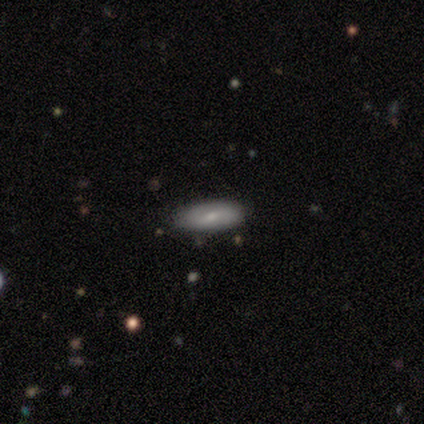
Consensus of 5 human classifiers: Smooth or featured? smooth (60%)
How rounded? in between (100%)
Merging? none (60%)